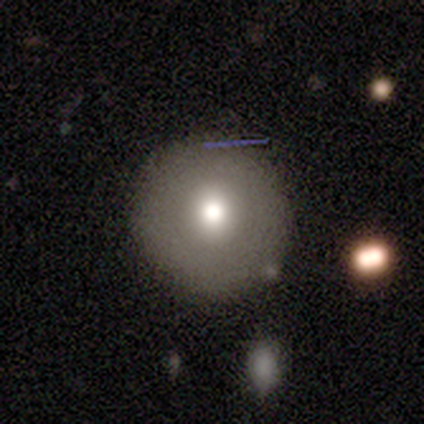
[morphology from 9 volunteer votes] smooth_or_featured: featured or disk (p=0.44) [alt: smooth p=0.33]
disk_edge_on: no (p=1.00)
bar: no (p=1.00)
has_spiral_arms: no (p=1.00)
bulge_size: moderate (p=0.75) [alt: large p=0.25]
merging: none (p=0.86) [alt: minor disturbance p=0.14]